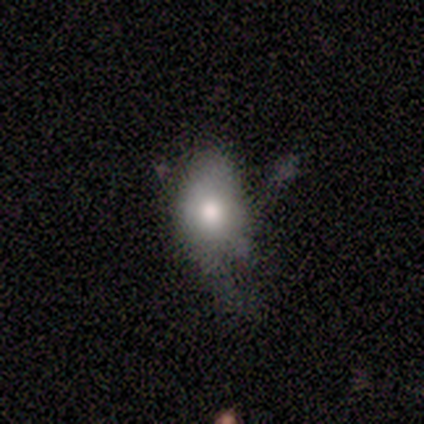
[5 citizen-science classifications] Morphology: type=smooth (80%); roundness=in between (100%); merging=minor disturbance (60%).